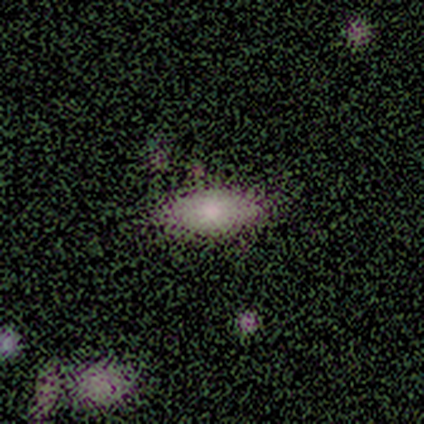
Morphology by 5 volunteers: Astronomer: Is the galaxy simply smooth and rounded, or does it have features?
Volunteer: smooth — 60%.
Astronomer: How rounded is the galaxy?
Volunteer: in between — 100%.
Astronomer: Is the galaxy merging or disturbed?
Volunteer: none — 100%.